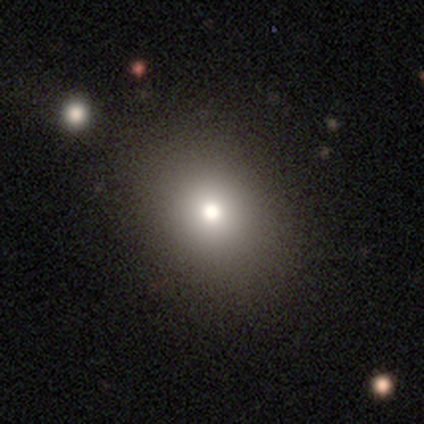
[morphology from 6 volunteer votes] type=smooth (67%); roundness=round (50%, tied with in between); merging=none (60%).